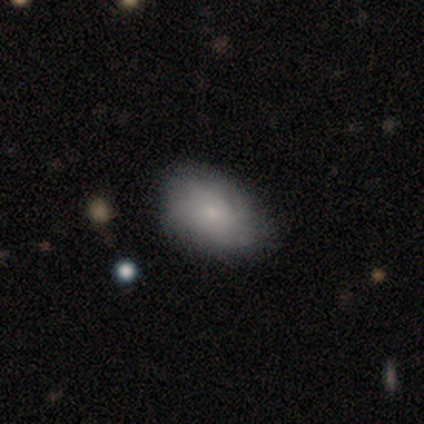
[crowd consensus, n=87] smooth-or-featured: smooth: 64% | featured or disk: 32% | star or artifact: 3%
  how-rounded: in between: 93% | round: 7% | cigar-shaped: 0%
  merging: none: 69% | minor disturbance: 27% | major disturbance: 4% | merger: 0%